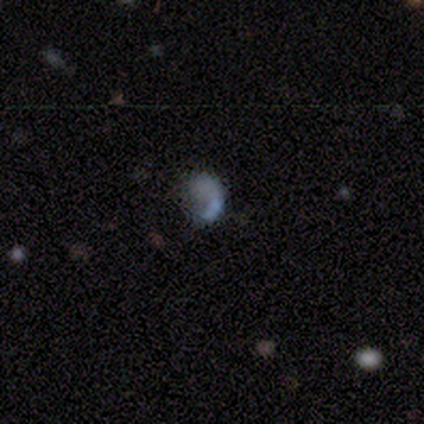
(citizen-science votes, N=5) Smooth or featured? 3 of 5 (60%) said smooth. How rounded? 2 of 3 (67%) said round. Merging? 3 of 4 (75%) said none.